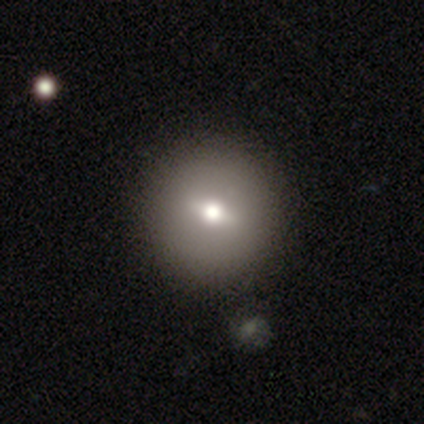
A featured or disk galaxy (40%, tied with star or artifact) viewed edge-on (50%, tied with no) with a rounded central bulge (100%).

Vote fractions:
- Smooth or featured? featured or disk: 40% (tied) / star or artifact: 40% (tied) / smooth: 20%
- Edge-on disk? yes: 50% (tied) / no: 50% (tied)
- Edge-on bulge? rounded: 100% / boxy: 0% / none: 0%
- Merging? none: 100% / minor disturbance: 0% / major disturbance: 0% / merger: 0%